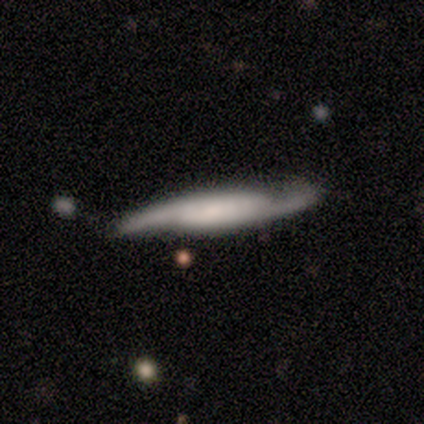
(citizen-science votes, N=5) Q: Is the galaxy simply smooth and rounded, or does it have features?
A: featured or disk — 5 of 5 (100%).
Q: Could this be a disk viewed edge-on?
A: no — 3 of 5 (60%).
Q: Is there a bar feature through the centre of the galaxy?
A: no — 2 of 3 (67%).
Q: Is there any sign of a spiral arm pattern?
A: yes — 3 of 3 (100%).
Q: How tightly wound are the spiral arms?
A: tight — 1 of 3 (33%, tied with medium and loose).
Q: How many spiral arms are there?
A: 2 — 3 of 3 (100%).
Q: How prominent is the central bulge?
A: small — 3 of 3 (100%).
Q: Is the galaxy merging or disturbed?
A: none — 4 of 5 (80%).